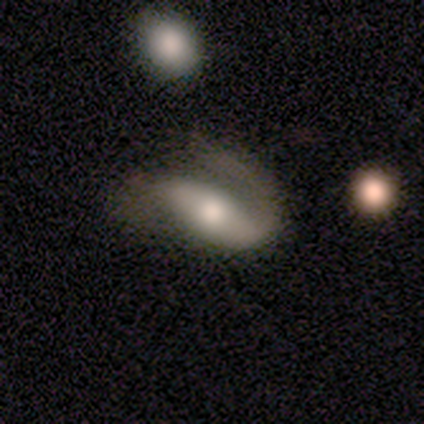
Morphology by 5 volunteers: A featured or disk galaxy (80%) with a weak bar (50%), 2 (67%) tight (67%) spiral arms (75%) and a moderate central bulge (75%).

Vote fractions:
- Smooth or featured? featured or disk: 80% / smooth: 20% / star or artifact: 0%
- Edge-on disk? no: 100% / yes: 0%
- Bar? weak: 50% / strong: 25% / no: 25%
- Spiral arms? yes: 75% / no: 25%
- Spiral winding? tight: 67% / medium: 33% / loose: 0%
- Spiral arm count? 2: 67% / 1: 33% / 3: 0% / 4: 0% / more than 4: 0% / can't tell: 0%
- Bulge size? moderate: 75% / large: 25% / dominant: 0% / small: 0% / none: 0%
- Merging? none: 60% / minor disturbance: 40% / major disturbance: 0% / merger: 0%